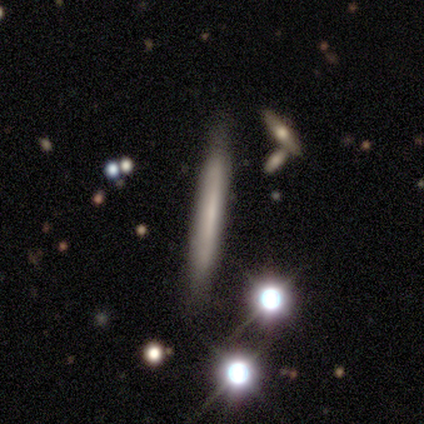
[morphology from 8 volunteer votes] Smooth or featured: smooth — 50% (tied with featured or disk — 50%)
How rounded: cigar-shaped — 100%
Merging: none — 88% (minor disturbance — 12%)